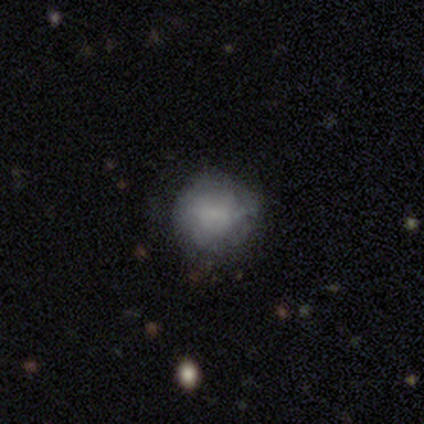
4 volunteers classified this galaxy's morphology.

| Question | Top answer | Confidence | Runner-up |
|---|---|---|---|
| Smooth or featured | smooth | 100% | — |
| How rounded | round | 75% | in between (25%) |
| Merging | none | 75% | minor disturbance (25%) |